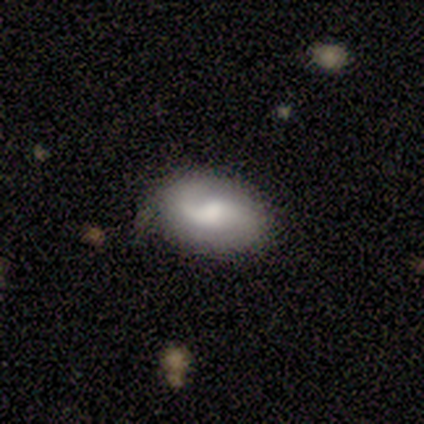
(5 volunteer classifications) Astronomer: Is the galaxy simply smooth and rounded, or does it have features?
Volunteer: featured or disk — 60% (runner-up: smooth, 40%).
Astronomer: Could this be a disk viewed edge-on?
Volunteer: no — 100%.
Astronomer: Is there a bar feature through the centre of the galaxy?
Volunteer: weak — 100%.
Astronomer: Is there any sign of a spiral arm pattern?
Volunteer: yes — 67%.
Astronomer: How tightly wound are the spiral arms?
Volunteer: medium — 100%.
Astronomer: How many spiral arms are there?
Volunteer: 2 — 100%.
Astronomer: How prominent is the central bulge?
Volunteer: moderate — 67%.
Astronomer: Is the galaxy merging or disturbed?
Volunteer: none — 80%.